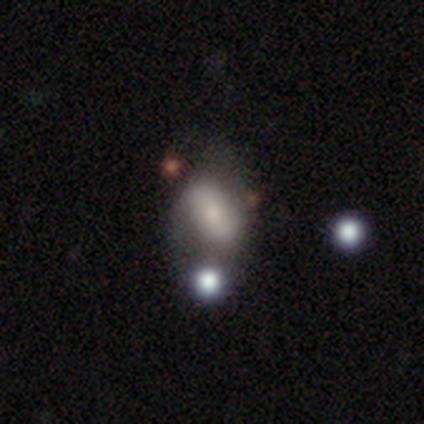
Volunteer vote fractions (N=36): This appears to be a smooth galaxy with no disk features (47%) that is in between round and cigar-shaped (88%). Merging: none (45%).